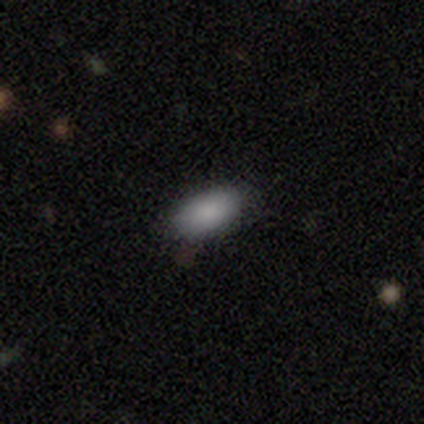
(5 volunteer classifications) smooth 80%, featured or disk 20%, star or artifact 0%. Down the decision tree: how rounded — in between (100%); merging — none (80%).